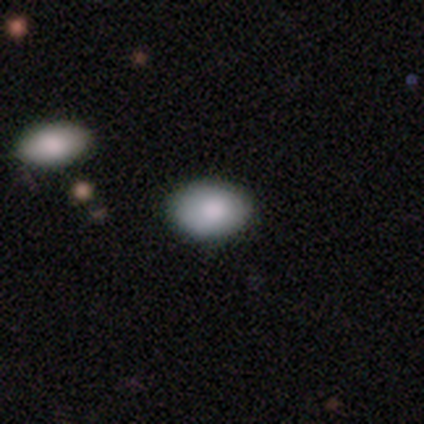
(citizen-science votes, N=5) This is clearly a smooth galaxy (100%). How rounded: likely in between (60%). Merging: likely minor disturbance (60%).